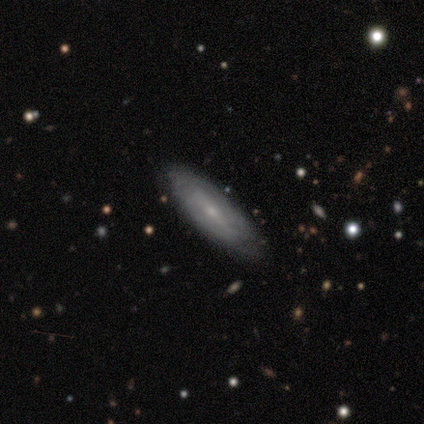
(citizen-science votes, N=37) This is possibly a featured or disk galaxy (51%). It is possibly not viewed edge-on (58%). Bar: possibly no (45%). Spiral arm pattern: possibly no (55%). Central bulge: clearly small (100%). Merging: likely none (77%).